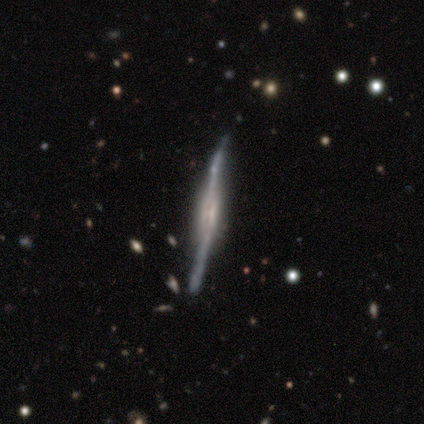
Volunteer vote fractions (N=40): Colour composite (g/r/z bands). It shows a featured or disk galaxy (80%) viewed edge-on (91%) with a boxy central bulge (69%). Merging: none (78%).